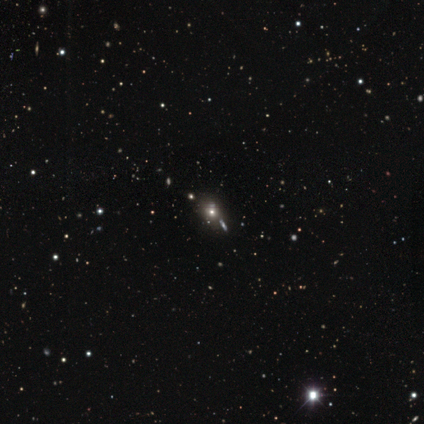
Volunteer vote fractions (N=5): star or artifact 60%, smooth 40%, featured or disk 0%.